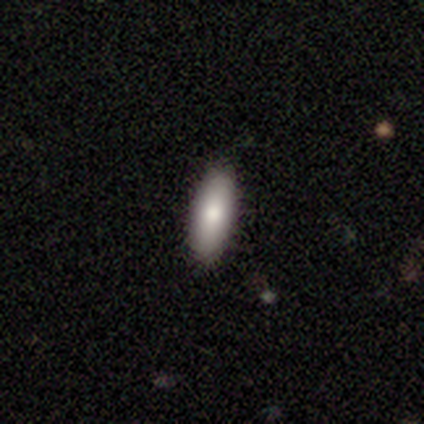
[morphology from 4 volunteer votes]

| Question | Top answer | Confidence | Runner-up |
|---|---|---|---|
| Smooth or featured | smooth | 100% | — |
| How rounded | in between | 75% | cigar-shaped (25%) |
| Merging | none | 100% | — |